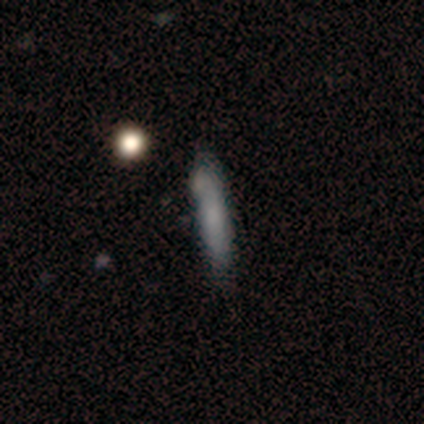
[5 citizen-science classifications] smooth 100%, featured or disk 0%, star or artifact 0%. Down the decision tree: how rounded — cigar-shaped (100%); merging — minor disturbance (40%, tied with major disturbance).